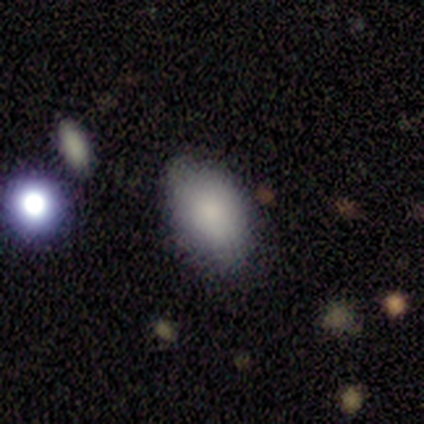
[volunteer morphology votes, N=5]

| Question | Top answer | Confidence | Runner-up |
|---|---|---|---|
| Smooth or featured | smooth | 100% | — |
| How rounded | in between | 100% | — |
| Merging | none | 100% | — |